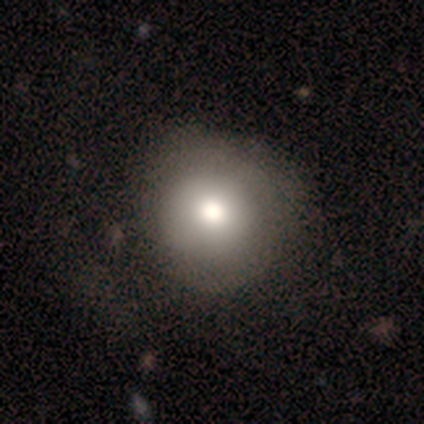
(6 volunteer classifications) A smooth galaxy with no disk features (83%) that is round (80%).

Vote fractions:
- Smooth or featured? smooth: 83% / star or artifact: 17% / featured or disk: 0%
- How rounded? round: 80% / in between: 20% / cigar-shaped: 0%
- Merging? none: 80% / major disturbance: 20% / minor disturbance: 0% / merger: 0%